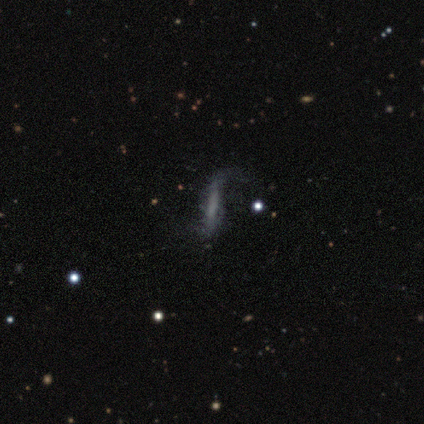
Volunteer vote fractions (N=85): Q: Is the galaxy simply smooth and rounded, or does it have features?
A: featured or disk — 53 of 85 (62%).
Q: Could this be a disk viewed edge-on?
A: no — 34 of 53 (64%).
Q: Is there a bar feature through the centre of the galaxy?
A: weak — 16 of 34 (47%).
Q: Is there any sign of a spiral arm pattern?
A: yes — 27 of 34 (79%).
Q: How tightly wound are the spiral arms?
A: loose — 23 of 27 (85%).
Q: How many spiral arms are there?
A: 2 — 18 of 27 (67%).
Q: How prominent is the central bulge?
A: none — 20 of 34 (59%).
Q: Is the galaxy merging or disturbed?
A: none — 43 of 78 (55%).